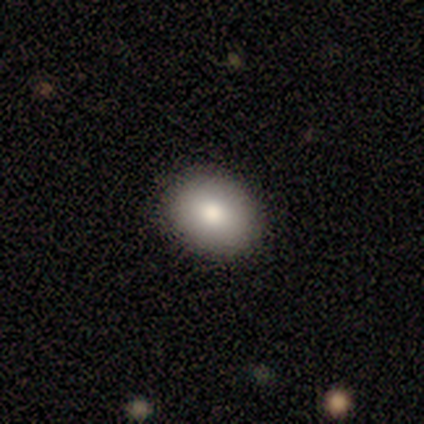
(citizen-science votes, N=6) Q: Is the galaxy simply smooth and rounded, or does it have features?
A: smooth — 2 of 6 (33%, tied with featured or disk and star or artifact).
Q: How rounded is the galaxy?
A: round — 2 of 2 (100%).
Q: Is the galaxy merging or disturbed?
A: none — 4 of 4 (100%).